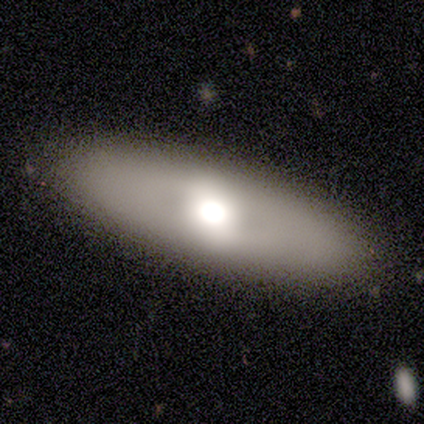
smooth 80%, featured or disk 20%, star or artifact 0%. Down the decision tree: how rounded — in between (50%, tied with cigar-shaped); merging — none (100%).